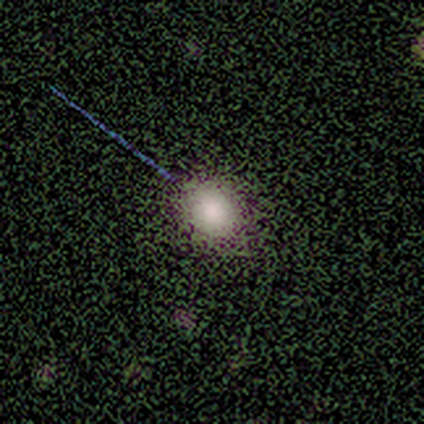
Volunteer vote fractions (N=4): smooth-or-featured: smooth: 50% (tied) | star or artifact: 50% (tied) | featured or disk: 0%
  how-rounded: round: 50% (tied) | in between: 50% (tied) | cigar-shaped: 0%
  merging: none: 50% (tied) | minor disturbance: 50% (tied) | major disturbance: 0% | merger: 0%